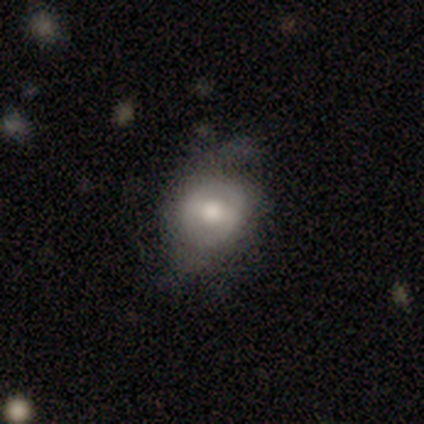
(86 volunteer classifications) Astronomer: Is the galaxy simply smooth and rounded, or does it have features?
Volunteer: smooth — 47% (runner-up: featured or disk, 41%).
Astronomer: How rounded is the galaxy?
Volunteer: round — 68%.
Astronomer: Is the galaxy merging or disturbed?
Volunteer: none — 43%, tied with minor disturbance at 43%.